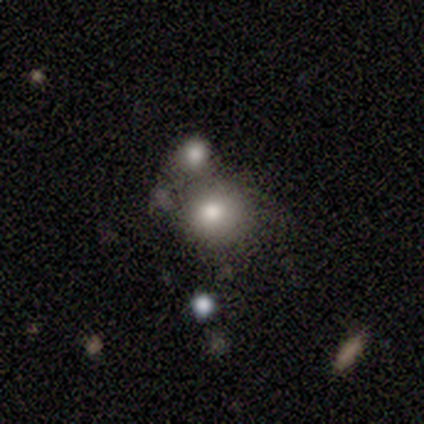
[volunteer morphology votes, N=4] This is clearly a smooth galaxy (100%). How rounded: clearly round (100%). Merging: clearly none (100%).